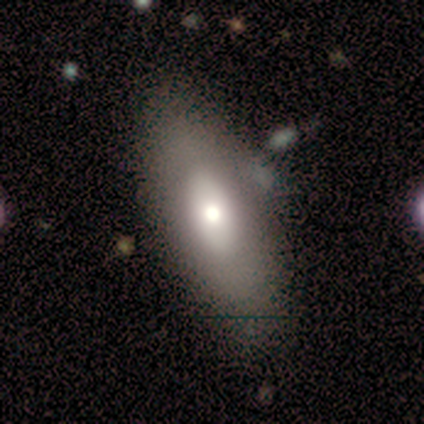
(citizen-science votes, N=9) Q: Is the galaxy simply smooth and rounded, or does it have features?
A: smooth — 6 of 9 (67%).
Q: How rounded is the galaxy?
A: in between — 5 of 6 (83%).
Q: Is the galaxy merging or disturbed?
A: none — 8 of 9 (89%).